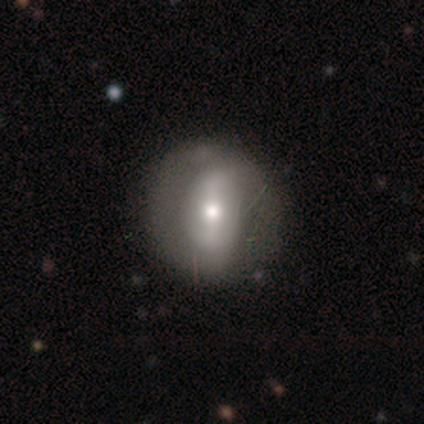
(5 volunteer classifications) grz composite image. It shows a featured or disk galaxy (80%) with a strong bar (50%), 2 (100%) tight (67%) spiral arms (75%) and a moderate central bulge (50%, tied with small). Merging: none (100%).